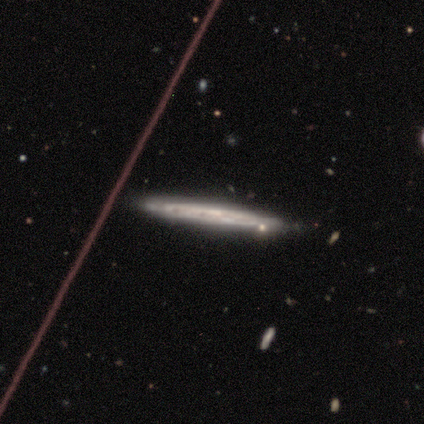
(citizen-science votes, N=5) Smooth or featured?
  - featured or disk: 80% *
  - smooth: 20%
  - star or artifact: 0%
Edge-on disk?
  - yes: 75% *
  - no: 25%
Edge-on bulge?
  - none: 100% *
  - boxy: 0%
  - rounded: 0%
Merging?
  - none: 80% *
  - minor disturbance: 20%
  - major disturbance: 0%
  - merger: 0%